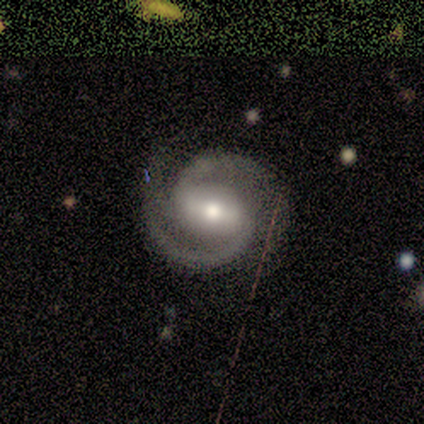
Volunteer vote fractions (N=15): This is clearly a featured or disk galaxy (93%). It is clearly not viewed edge-on (100%). Bar: likely strong (64%). Spiral arm pattern: clearly yes (100%). Spiral arm count: clearly 2 (93%). Spiral winding: possibly medium (57%). Central bulge: likely moderate (79%). Merging: clearly none (100%).